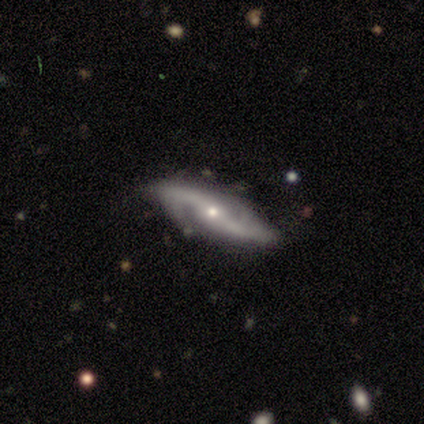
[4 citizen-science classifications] This appears to be a featured or disk galaxy (100%) with no bar (67%), 2 (100%) medium (100%) spiral arms (67%) and a moderate central bulge (67%). Merging: none (100%).